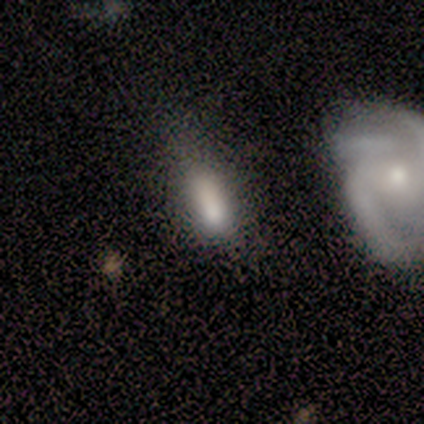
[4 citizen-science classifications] Smooth or featured?
  - smooth: 75% *
  - featured or disk: 25%
  - star or artifact: 0%
How rounded?
  - in between: 67% *
  - cigar-shaped: 33%
  - round: 0%
Merging?
  - major disturbance: 50% *
  - none: 25%
  - minor disturbance: 25%
  - merger: 0%